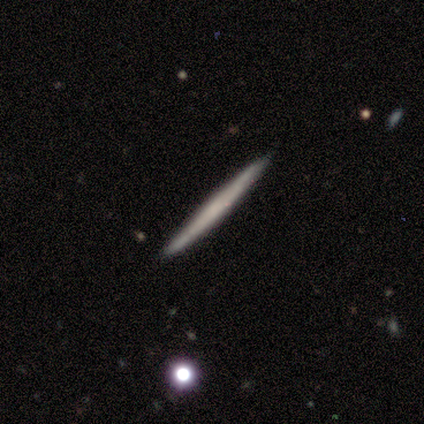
Smooth or featured: smooth — 54% (featured or disk — 46%)
How rounded: cigar-shaped — 100%
Merging: none — 95% (minor disturbance — 5%)